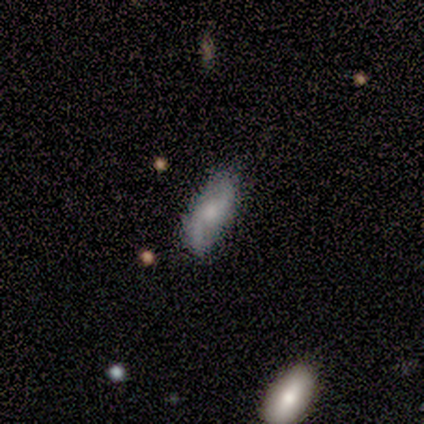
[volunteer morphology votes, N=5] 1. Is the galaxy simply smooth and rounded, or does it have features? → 80% featured or disk, 20% smooth, 0% star or artifact.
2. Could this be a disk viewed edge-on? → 100% no, 0% yes.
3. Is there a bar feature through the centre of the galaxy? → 100% no, 0% strong, 0% weak.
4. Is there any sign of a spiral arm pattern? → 75% yes, 25% no.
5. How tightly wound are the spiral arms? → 67% medium, 33% loose, 0% tight.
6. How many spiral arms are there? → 100% 2, 0% 1, 0% 3, 0% 4, 0% more than 4, 0% can't tell.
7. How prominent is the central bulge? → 75% moderate, 25% none, 0% dominant, 0% large, 0% small.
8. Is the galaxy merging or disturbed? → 100% none, 0% minor disturbance, 0% major disturbance, 0% merger.